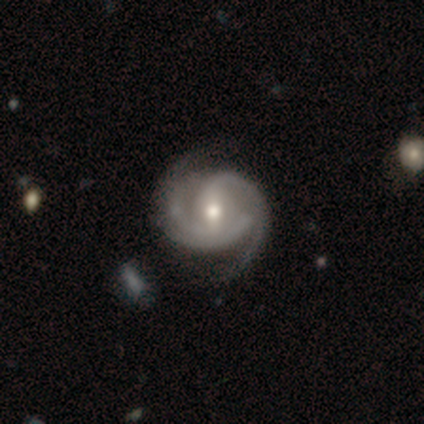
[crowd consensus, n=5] A featured or disk galaxy (100%) with a strong bar (40%, tied with no), 3 (60%) tight (40%, tied with medium) spiral arms (100%) and a moderate central bulge (60%).

Vote fractions:
- Smooth or featured? featured or disk: 100% / smooth: 0% / star or artifact: 0%
- Edge-on disk? no: 100% / yes: 0%
- Bar? strong: 40% (tied) / no: 40% (tied) / weak: 20%
- Spiral arms? yes: 100% / no: 0%
- Spiral winding? tight: 40% (tied) / medium: 40% (tied) / loose: 20%
- Spiral arm count? 3: 60% / 2: 40% / 1: 0% / 4: 0% / more than 4: 0% / can't tell: 0%
- Bulge size? moderate: 60% / small: 40% / dominant: 0% / large: 0% / none: 0%
- Merging? none: 80% / major disturbance: 20% / minor disturbance: 0% / merger: 0%